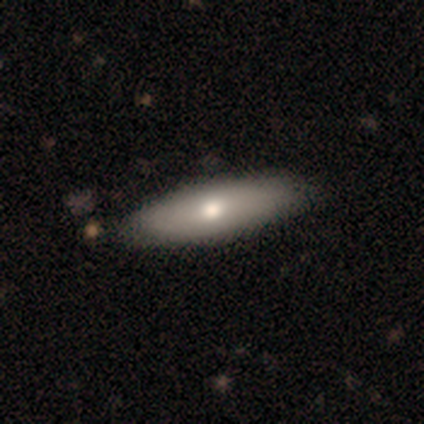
Smooth or featured? 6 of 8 (75%) said smooth. How rounded? 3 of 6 (50%, tied with cigar-shaped) said in between. Merging? 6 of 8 (75%) said none.